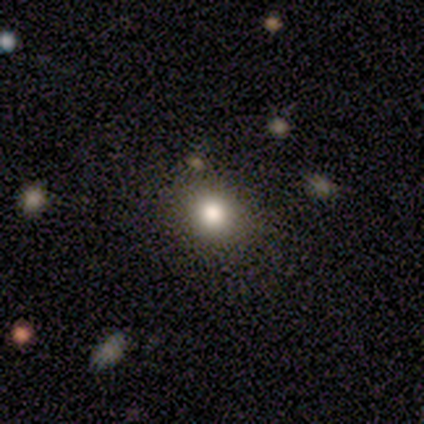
This is likely a smooth galaxy (78%). How rounded: likely round (78%). Merging: clearly none (88%).